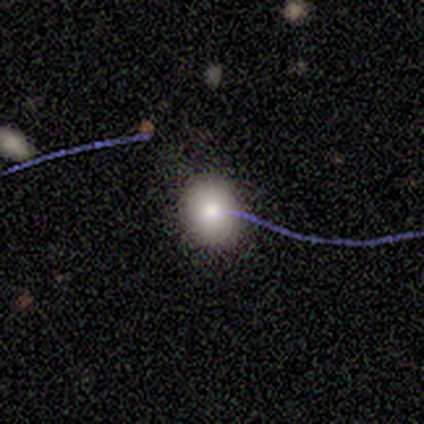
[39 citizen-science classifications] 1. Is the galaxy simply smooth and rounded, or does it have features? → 82% smooth, 10% star or artifact, 8% featured or disk.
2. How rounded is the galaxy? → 75% round, 25% in between, 0% cigar-shaped.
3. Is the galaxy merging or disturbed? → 89% none, 6% minor disturbance, 6% major disturbance, 0% merger.